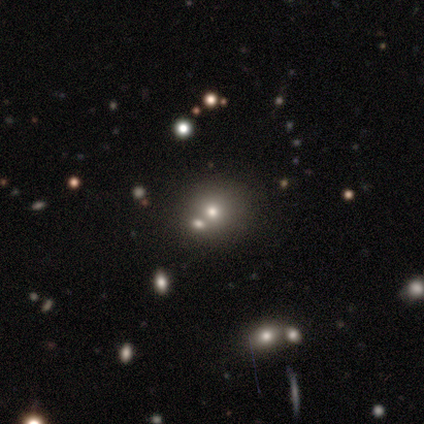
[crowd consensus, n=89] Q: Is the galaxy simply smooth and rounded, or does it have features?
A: smooth — 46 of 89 (52%).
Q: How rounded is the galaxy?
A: round — 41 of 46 (89%).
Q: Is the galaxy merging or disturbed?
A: none — 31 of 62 (50%).